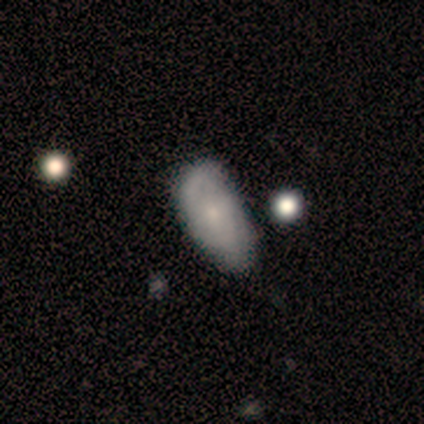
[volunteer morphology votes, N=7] type=smooth (86%); roundness=in between (100%); merging=none (57%).